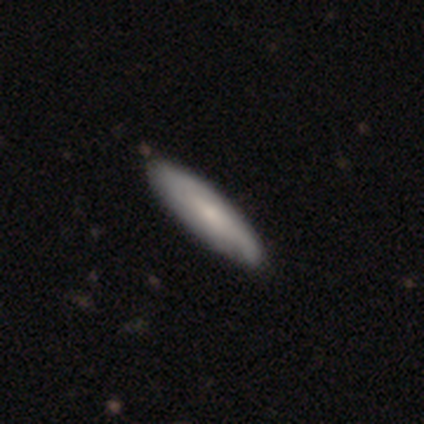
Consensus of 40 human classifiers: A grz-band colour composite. It shows a smooth galaxy with no disk features (52%) that is cigar-shaped (86%). Merging: none (49%).